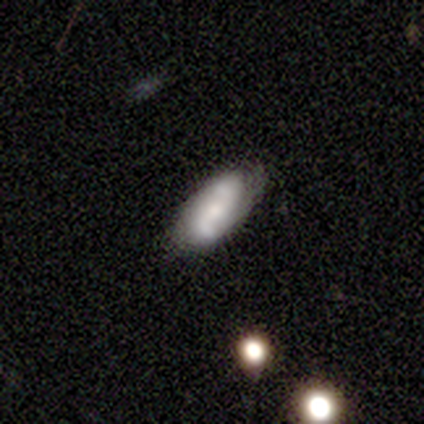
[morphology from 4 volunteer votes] Smooth or featured? featured or disk (100%)
Edge-on disk? no (100%)
Bar? weak (75%)
Spiral arms? yes (50%, tied with no)
Spiral winding? tight (50%, tied with loose)
Spiral arm count? 2 (100%)
Bulge size? moderate (50%, tied with small)
Merging? none (100%)